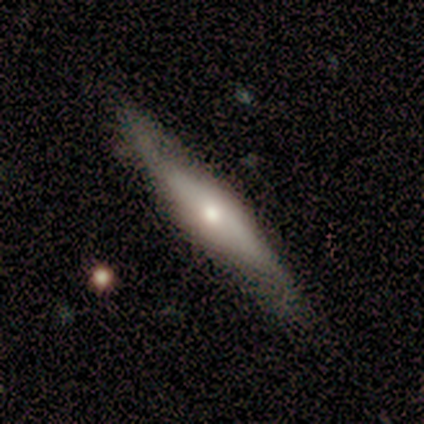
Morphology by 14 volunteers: Smooth or featured: featured or disk — 71% (smooth — 29%)
Edge-on disk: no — 60% (yes — 40%)
Bar: no — 83% (strong — 17%)
Spiral arms: yes — 50% (tied with no — 50%)
Spiral winding: medium — 67% (loose — 33%)
Spiral arm count: 2 — 67% (1 — 33%)
Bulge size: large — 33% (tied with moderate — 33%; small — 33%)
Merging: none — 64% (minor disturbance — 36%)